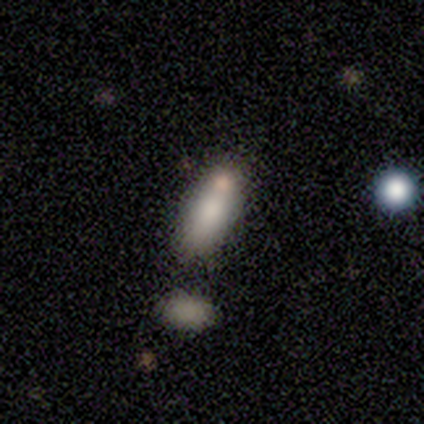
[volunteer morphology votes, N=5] Overall: smooth (100%). How rounded: cigar-shaped (60%; in between 40%). Merging: none (60%; minor disturbance 40%).